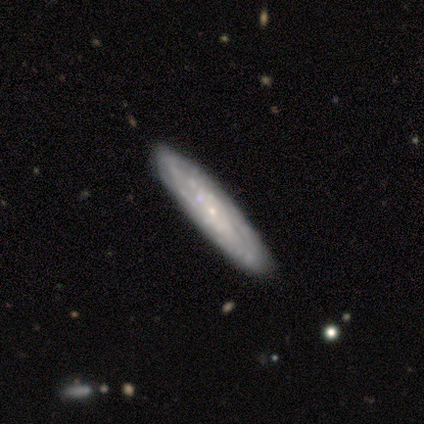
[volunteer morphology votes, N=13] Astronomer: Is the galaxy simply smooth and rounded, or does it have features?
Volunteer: featured or disk — 85%.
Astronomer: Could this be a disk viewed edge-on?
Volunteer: no — 64%.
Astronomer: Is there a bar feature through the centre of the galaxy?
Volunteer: no — 100%.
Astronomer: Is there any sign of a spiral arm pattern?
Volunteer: yes — 86%.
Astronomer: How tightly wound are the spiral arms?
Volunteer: tight — 83%.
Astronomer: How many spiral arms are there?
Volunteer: can't tell — 83%.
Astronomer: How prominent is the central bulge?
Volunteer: small — 100%.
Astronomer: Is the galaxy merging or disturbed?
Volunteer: none — 92%.